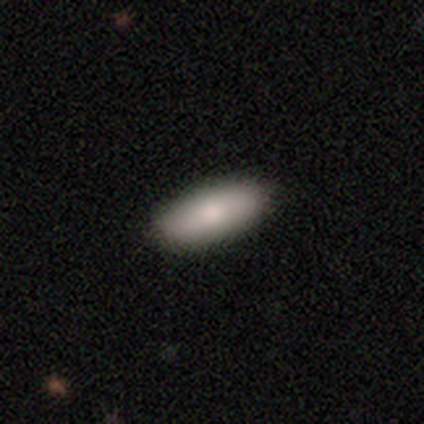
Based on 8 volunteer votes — Smooth or featured? smooth (75%)
How rounded? in between (67%)
Merging? none (71%)